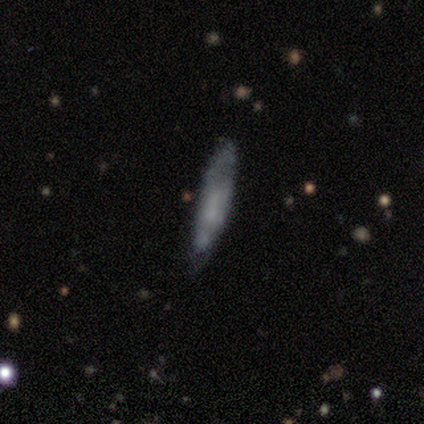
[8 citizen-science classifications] Q: Smooth or featured?
A: smooth (75%); runner-up: featured or disk (25%)
Q: How rounded?
A: cigar-shaped (83%); runner-up: in between (17%)
Q: Merging?
A: none (88%); runner-up: minor disturbance (12%)